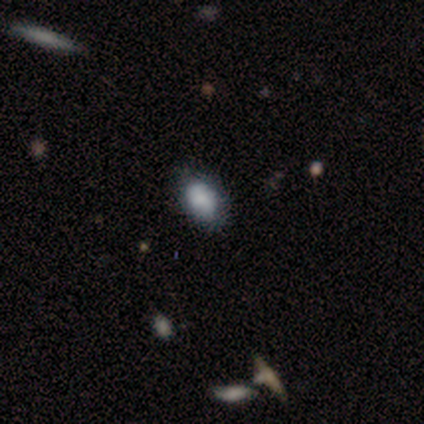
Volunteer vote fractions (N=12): smooth-or-featured: smooth: 100% | featured or disk: 0% | star or artifact: 0%
  how-rounded: in between: 92% | round: 8% | cigar-shaped: 0%
  merging: none: 58% | minor disturbance: 42% | major disturbance: 0% | merger: 0%